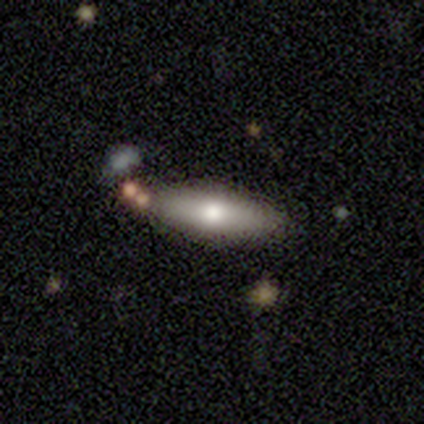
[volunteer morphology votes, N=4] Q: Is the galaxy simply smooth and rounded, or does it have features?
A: smooth — 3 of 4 (75%).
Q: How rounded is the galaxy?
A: cigar-shaped — 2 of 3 (67%).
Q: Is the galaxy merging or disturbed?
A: none — 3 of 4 (75%).